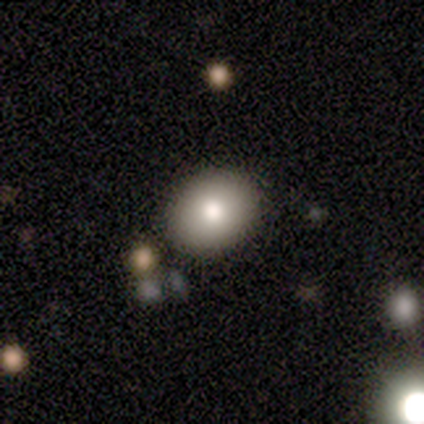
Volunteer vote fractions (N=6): Morphology: type=smooth (83%); roundness=round (80%); merging=none (80%).